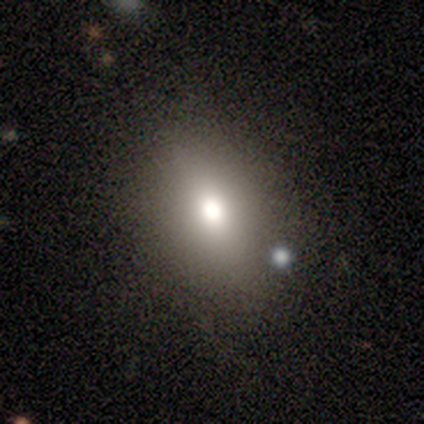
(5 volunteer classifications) Smooth or featured? 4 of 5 (80%) said smooth. How rounded? 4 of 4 (100%) said in between. Merging? 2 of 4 (50%) said none.